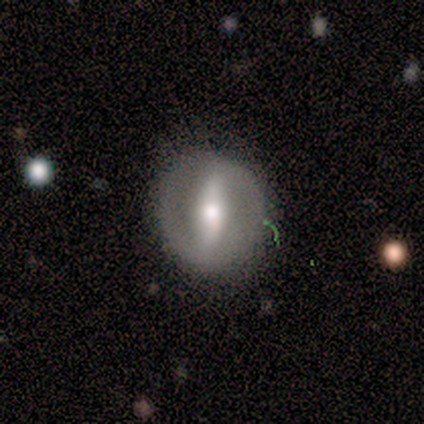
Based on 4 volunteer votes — featured or disk 75%, star or artifact 25%, smooth 0%. Down the decision tree: edge-on disk — no (100%); bar — strong (67%); spiral arms — no (67%); bulge size — moderate (67%); merging — none (100%).